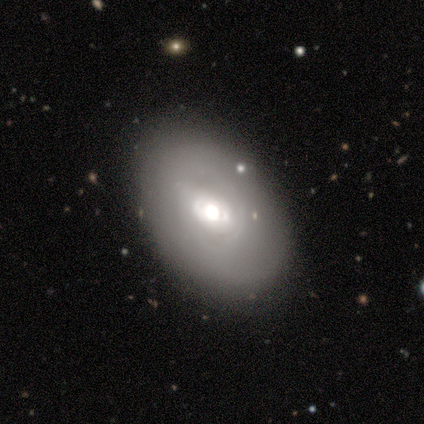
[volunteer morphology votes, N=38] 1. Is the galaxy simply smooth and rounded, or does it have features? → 58% smooth, 42% featured or disk, 0% star or artifact.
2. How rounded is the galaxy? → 73% in between, 27% round, 0% cigar-shaped.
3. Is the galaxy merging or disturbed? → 66% none, 26% minor disturbance, 5% major disturbance, 3% merger.